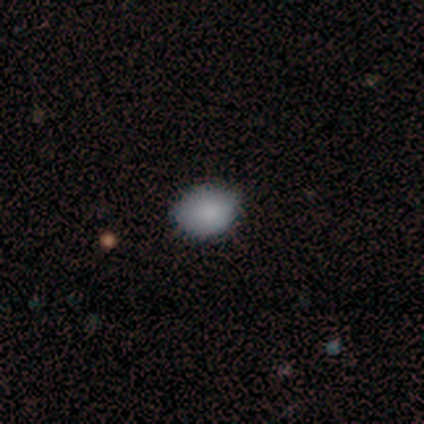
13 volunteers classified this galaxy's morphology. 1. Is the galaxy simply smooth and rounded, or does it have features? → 100% smooth, 0% featured or disk, 0% star or artifact.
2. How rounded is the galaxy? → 85% in between, 15% round, 0% cigar-shaped.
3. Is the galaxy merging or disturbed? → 85% none, 8% minor disturbance, 8% merger, 0% major disturbance.